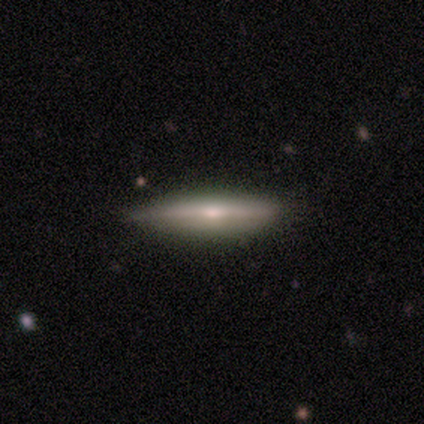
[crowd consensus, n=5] Smooth or featured: featured or disk — 80% (smooth — 20%)
Edge-on disk: yes — 100%
Edge-on bulge: rounded — 100%
Merging: none — 80% (minor disturbance — 20%)